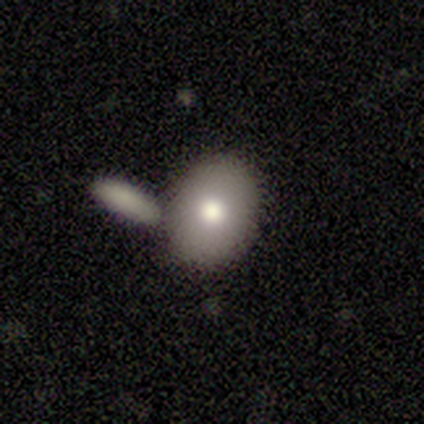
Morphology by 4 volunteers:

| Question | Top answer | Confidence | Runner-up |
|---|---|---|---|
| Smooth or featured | smooth | 100% | — |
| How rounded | in between | 75% | round (25%) |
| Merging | none | 100% | — |